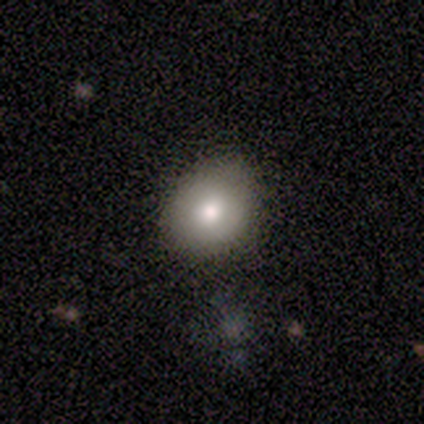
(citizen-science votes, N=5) This is marginally a smooth galaxy (40%, tied with featured or disk). How rounded: possibly round (50%, tied with in between). Merging: likely none (75%).